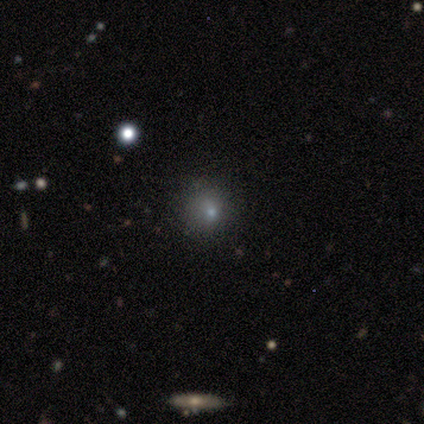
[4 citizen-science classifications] This is likely a smooth galaxy (75%). How rounded: clearly round (100%). Merging: marginally none (33%, tied with minor disturbance and major disturbance).